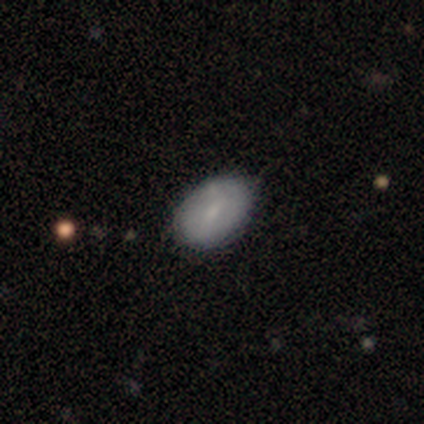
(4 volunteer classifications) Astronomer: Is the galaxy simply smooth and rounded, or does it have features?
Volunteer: smooth — 100%.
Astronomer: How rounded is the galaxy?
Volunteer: in between — 75%.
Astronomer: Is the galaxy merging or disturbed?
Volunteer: none — 75%.